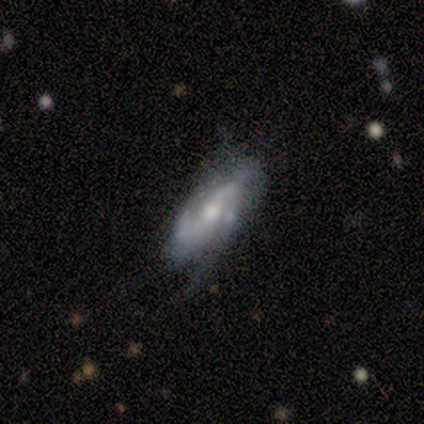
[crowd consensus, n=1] Smooth or featured: featured or disk — 100%
Edge-on disk: no — 100%
Bar: no — 100%
Spiral arms: yes — 100%
Spiral winding: loose — 100%
Spiral arm count: can't tell — 100%
Bulge size: moderate — 100%
Merging: major disturbance — 100%